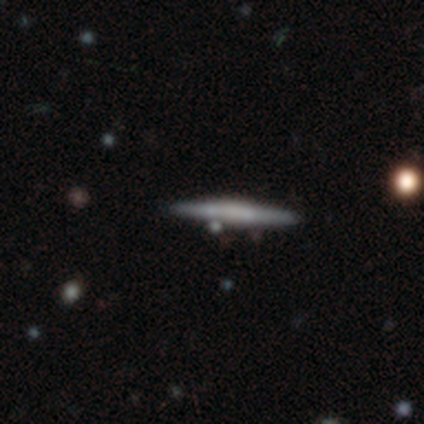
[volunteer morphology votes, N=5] smooth-or-featured: featured or disk: 60% | smooth: 20% | star or artifact: 20%
  disk-edge-on: yes: 100% | no: 0%
    edge-on-bulge: boxy: 67% | rounded: 33% | none: 0%
  merging: none: 100% | minor disturbance: 0% | major disturbance: 0% | merger: 0%